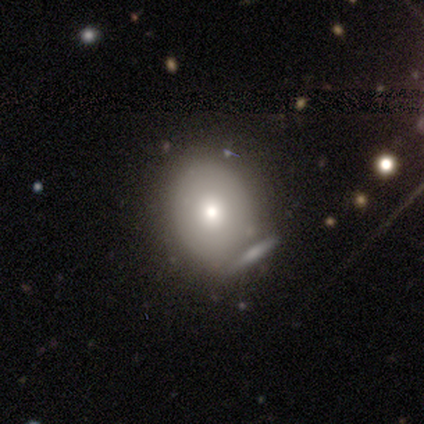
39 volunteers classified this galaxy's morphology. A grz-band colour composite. It shows a smooth galaxy with no disk features (69%) that is round (56%). Merging: none (62%).